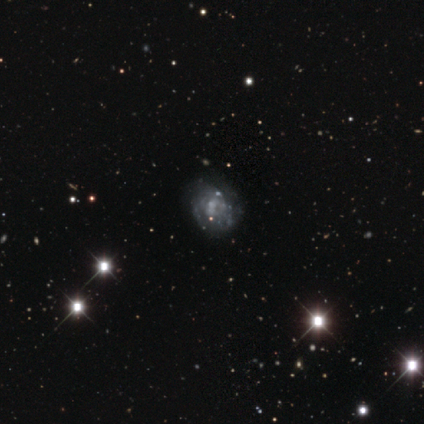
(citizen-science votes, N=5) Smooth or featured? 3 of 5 (60%) said featured or disk. Edge-on disk? 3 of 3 (100%) said no. Bar? 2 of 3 (67%) said no. Spiral arms? 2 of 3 (67%) said no. Bulge size? 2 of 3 (67%) said none. Merging? 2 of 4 (50%) said none.